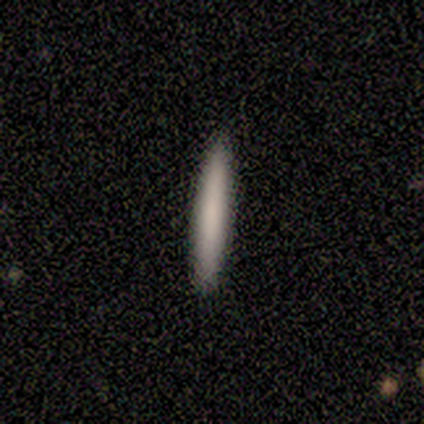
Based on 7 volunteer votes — smooth-or-featured: smooth: 86% | featured or disk: 14% | star or artifact: 0%
  how-rounded: cigar-shaped: 100% | round: 0% | in between: 0%
  merging: none: 100% | minor disturbance: 0% | major disturbance: 0% | merger: 0%